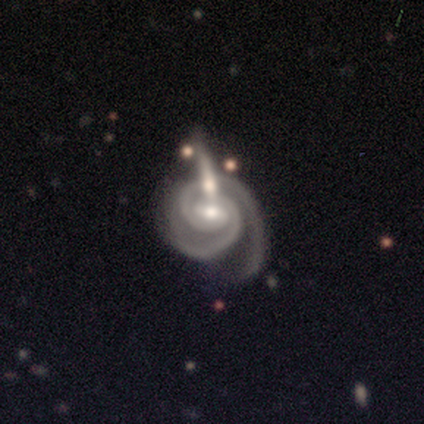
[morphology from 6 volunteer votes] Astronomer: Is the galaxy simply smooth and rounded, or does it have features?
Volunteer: featured or disk — 100%.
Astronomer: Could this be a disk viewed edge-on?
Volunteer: no — 100%.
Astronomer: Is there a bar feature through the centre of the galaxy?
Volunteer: weak — 67%.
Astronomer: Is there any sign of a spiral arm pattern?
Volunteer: yes — 100%.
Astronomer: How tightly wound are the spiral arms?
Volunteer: tight — 83%.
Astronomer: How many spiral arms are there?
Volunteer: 2 — 100%.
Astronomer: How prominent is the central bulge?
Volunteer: moderate — 67%.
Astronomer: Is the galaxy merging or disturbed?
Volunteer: merger — 50%.